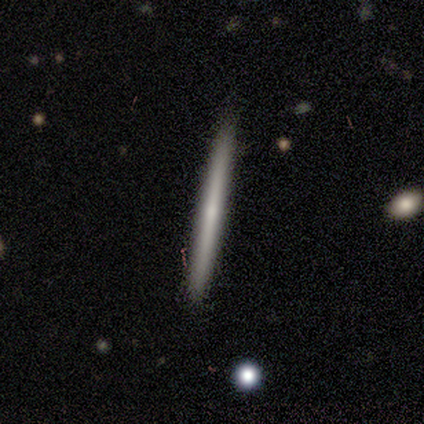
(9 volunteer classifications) A featured or disk galaxy (56%) viewed edge-on (100%) with no central bulge (100%). Merging: none (89%).